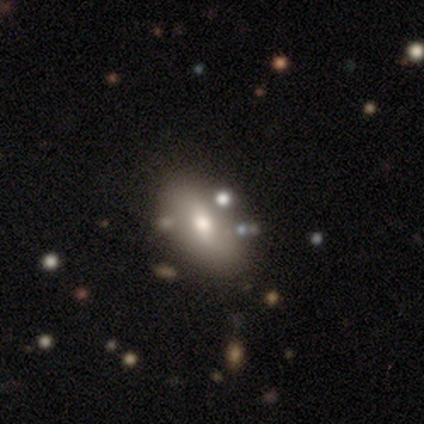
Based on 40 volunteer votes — smooth-or-featured: smooth: 60% | featured or disk: 35% | star or artifact: 5%
  how-rounded: in between: 92% | round: 8% | cigar-shaped: 0%
  merging: none: 89% | minor disturbance: 8% | merger: 3% | major disturbance: 0%